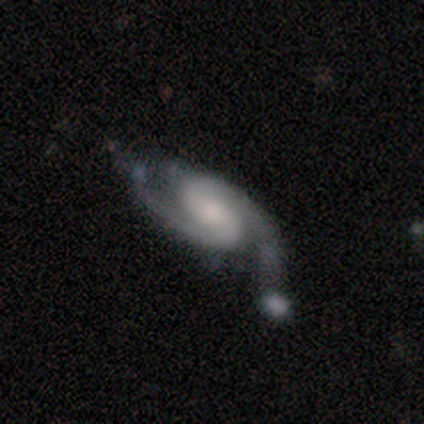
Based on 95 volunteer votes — Q: Smooth or featured?
A: featured or disk (96%); runner-up: smooth (2%)
Q: Edge-on disk?
A: no (97%); runner-up: yes (3%)
Q: Bar?
A: weak (50%); runner-up: no (39%)
Q: Spiral arms?
A: yes (98%); runner-up: no (2%)
Q: Spiral winding?
A: medium (62%); runner-up: tight (24%)
Q: Spiral arm count?
A: 2 (94%); runner-up: can't tell (3%)
Q: Bulge size?
A: small (44%); runner-up: moderate (31%)
Q: Merging?
A: none (57%); runner-up: minor disturbance (18%)